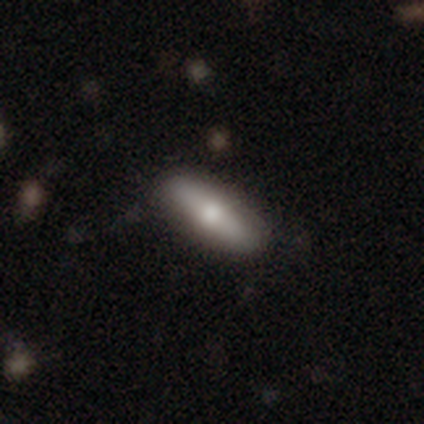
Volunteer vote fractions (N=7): Smooth or featured: smooth — 71% (featured or disk — 29%)
How rounded: cigar-shaped — 60% (in between — 40%)
Merging: none — 100%